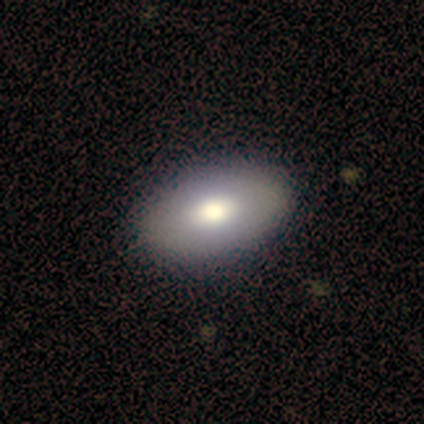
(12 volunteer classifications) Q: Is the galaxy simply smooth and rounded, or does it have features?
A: smooth — 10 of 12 (83%).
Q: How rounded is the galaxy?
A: in between — 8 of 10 (80%).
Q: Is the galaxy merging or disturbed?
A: none — 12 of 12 (100%).